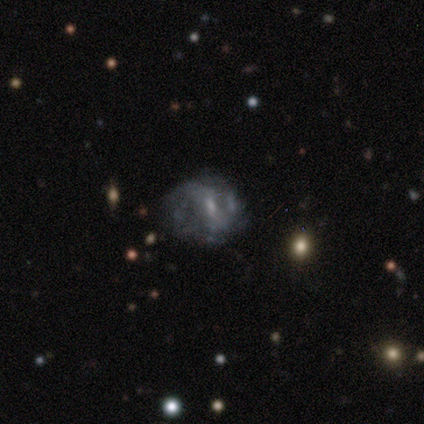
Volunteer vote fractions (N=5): Q: Smooth or featured?
A: featured or disk (80%); runner-up: smooth (20%)
Q: Edge-on disk?
A: no (100%)
Q: Bar?
A: weak (75%); runner-up: no (25%)
Q: Spiral arms?
A: no (75%); runner-up: yes (25%)
Q: Bulge size?
A: moderate (50%); tied with: small (50%)
Q: Merging?
A: major disturbance (80%); runner-up: none (20%)